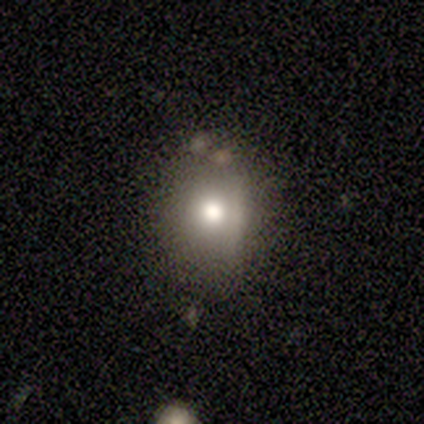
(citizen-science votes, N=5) smooth-or-featured: smooth: 60% | featured or disk: 20% | star or artifact: 20%
  how-rounded: in between: 100% | round: 0% | cigar-shaped: 0%
  merging: none: 50% | minor disturbance: 25% | merger: 25% | major disturbance: 0%